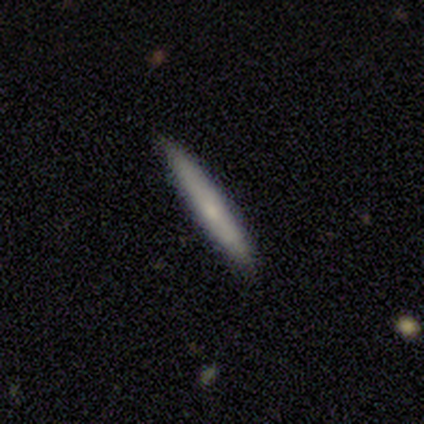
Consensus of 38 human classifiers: featured or disk 61%, smooth 37%, star or artifact 3%. Down the decision tree: edge-on disk — yes (96%); edge-on bulge — none (68%); merging — none (70%).